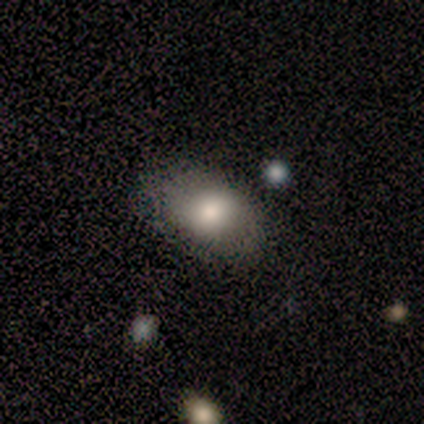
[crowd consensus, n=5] smooth_or_featured: smooth (p=1.00)
how_rounded: in between (p=0.80) [alt: round p=0.20]
merging: none (p=0.60) [alt: minor disturbance p=0.40]